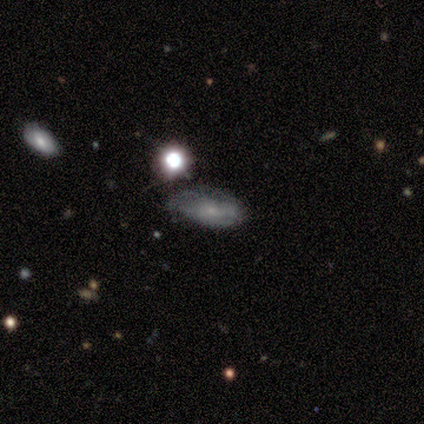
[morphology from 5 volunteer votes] Smooth or featured?
  - featured or disk: 60% *
  - smooth: 40%
  - star or artifact: 0%
Edge-on disk?
  - no: 100% *
  - yes: 0%
Bar?
  - no: 67% *
  - weak: 33%
  - strong: 0%
Spiral arms?
  - yes: 67% *
  - no: 33%
Spiral winding?
  - tight: 50% * (tied)
  - medium: 50% * (tied)
  - loose: 0%
Spiral arm count?
  - can't tell: 100% *
  - 1: 0%
  - 2: 0%
  - 3: 0%
  - 4: 0%
  - more than 4: 0%
Bulge size?
  - small: 100% *
  - dominant: 0%
  - large: 0%
  - moderate: 0%
  - none: 0%
Merging?
  - minor disturbance: 60% *
  - none: 20%
  - major disturbance: 20%
  - merger: 0%